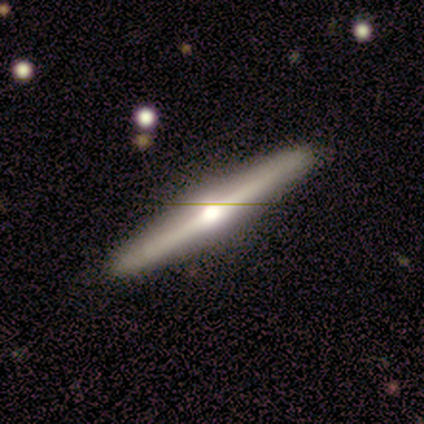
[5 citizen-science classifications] Smooth or featured: featured or disk — 60% (smooth — 40%)
Edge-on disk: yes — 67% (no — 33%)
Edge-on bulge: rounded — 100%
Merging: none — 100%